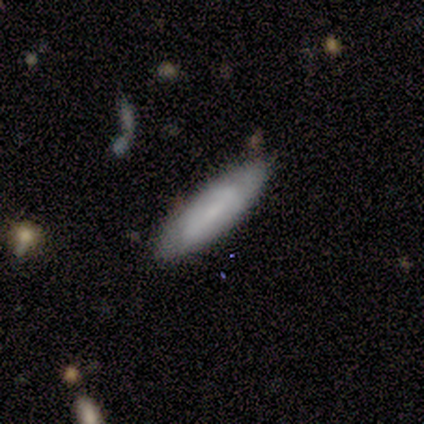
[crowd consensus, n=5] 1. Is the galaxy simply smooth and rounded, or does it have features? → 80% smooth, 20% featured or disk, 0% star or artifact.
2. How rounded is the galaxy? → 75% in between, 25% cigar-shaped, 0% round.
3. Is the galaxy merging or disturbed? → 100% none, 0% minor disturbance, 0% major disturbance, 0% merger.